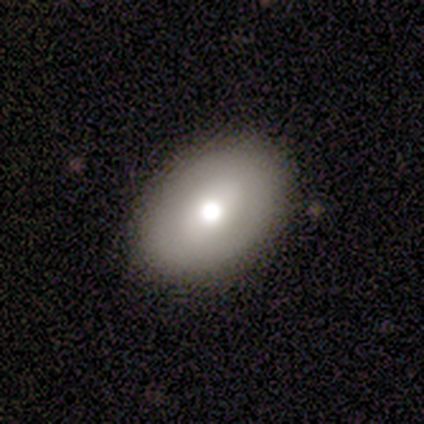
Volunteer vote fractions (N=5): Q: Smooth or featured?
A: smooth (100%)
Q: How rounded?
A: in between (80%); runner-up: round (20%)
Q: Merging?
A: none (80%); runner-up: minor disturbance (20%)